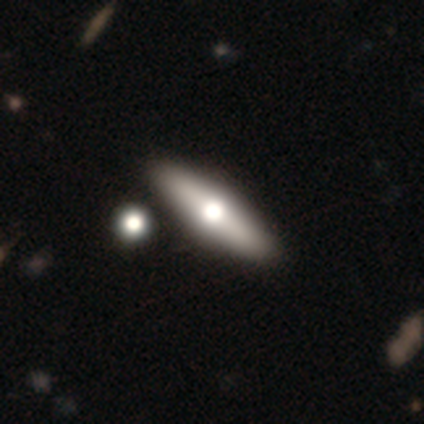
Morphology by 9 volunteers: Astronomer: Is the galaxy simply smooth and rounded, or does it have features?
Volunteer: featured or disk — 78%.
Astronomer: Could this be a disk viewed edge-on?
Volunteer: yes — 100%.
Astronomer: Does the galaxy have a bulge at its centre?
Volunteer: rounded — 100%.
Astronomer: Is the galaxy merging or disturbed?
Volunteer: none — 89%.